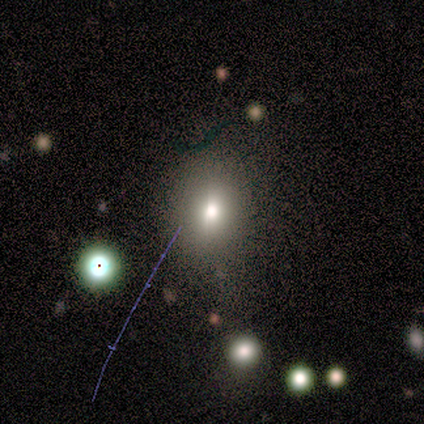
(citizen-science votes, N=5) smooth-or-featured: smooth: 40% (tied) | star or artifact: 40% (tied) | featured or disk: 20%
  how-rounded: in between: 100% | round: 0% | cigar-shaped: 0%
  merging: none: 67% | minor disturbance: 33% | major disturbance: 0% | merger: 0%